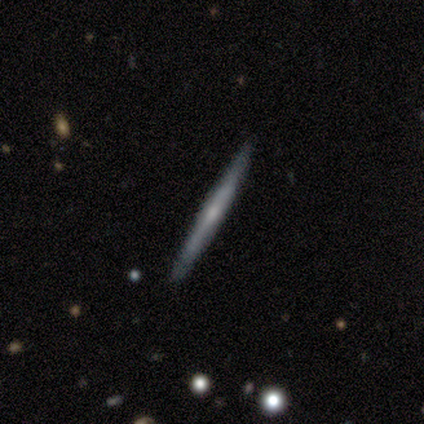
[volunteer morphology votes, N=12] A featured or disk galaxy (67%) viewed edge-on (100%) with no central bulge (75%). Merging: none (92%).